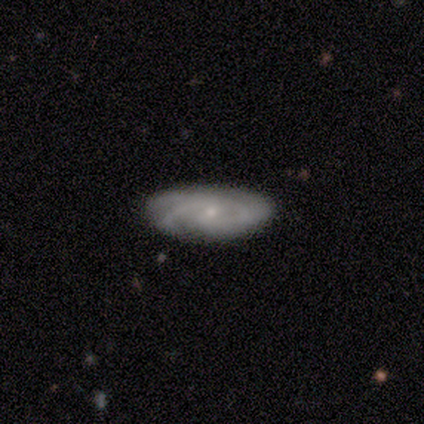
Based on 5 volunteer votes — Morphology: type=featured or disk (60%); edge-on=no (100%); bar=weak (67%); spiral arms=yes (100%); winding=tight (33%, tied with medium and loose); arm count=2 (67%); bulge=small (67%); merging=none (75%).